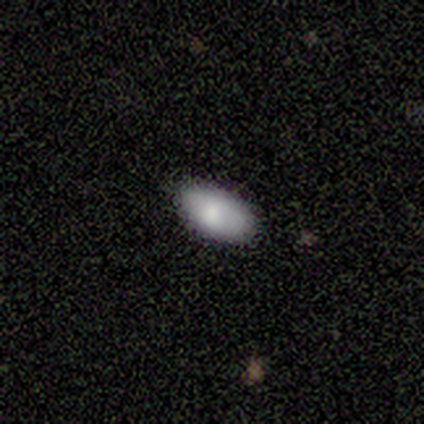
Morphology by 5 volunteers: Overall: smooth (100%). How rounded: in between (100%). Merging: none (100%).